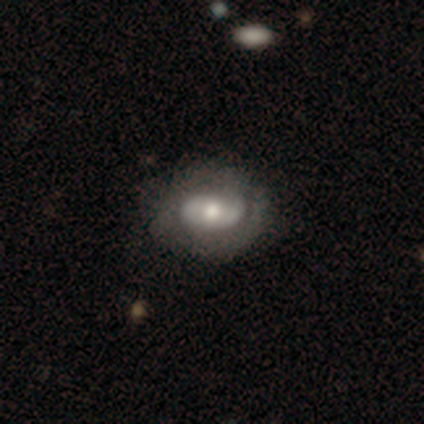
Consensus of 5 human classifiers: This appears to be a featured or disk galaxy (60%) with no bar (100%), no spiral arms (100%) and a moderate central bulge (67%). Merging: none (100%).